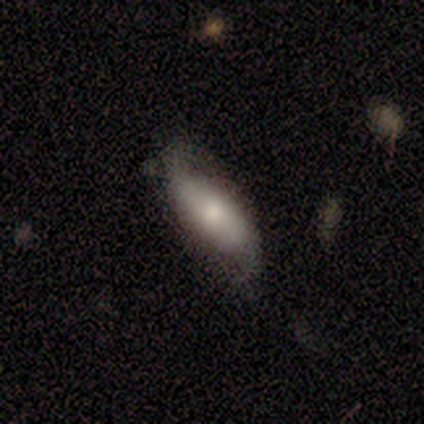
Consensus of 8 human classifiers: smooth-or-featured: featured or disk: 62% | smooth: 38% | star or artifact: 0%
  disk-edge-on: no: 100% | yes: 0%
    bar: no: 80% | strong: 20% | weak: 0%
    has-spiral-arms: yes: 100% | no: 0%
      spiral-winding: loose: 60% | medium: 40% | tight: 0%
      spiral-arm-count: 2: 100% | 1: 0% | 3: 0% | 4: 0% | more than 4: 0% | can't tell: 0%
    bulge-size: moderate: 60% | small: 40% | dominant: 0% | large: 0% | none: 0%
  merging: none: 50% | minor disturbance: 38% | major disturbance: 12% | merger: 0%